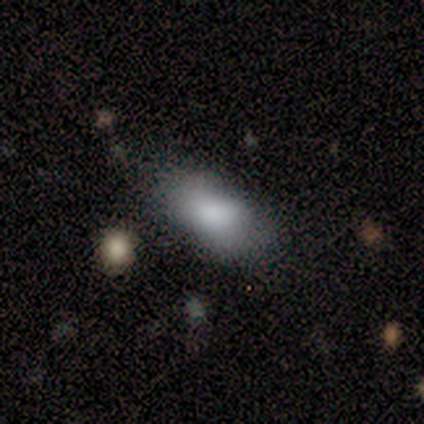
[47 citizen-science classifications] Overall: smooth (83%). How rounded: in between (97%). Merging: none (67%).